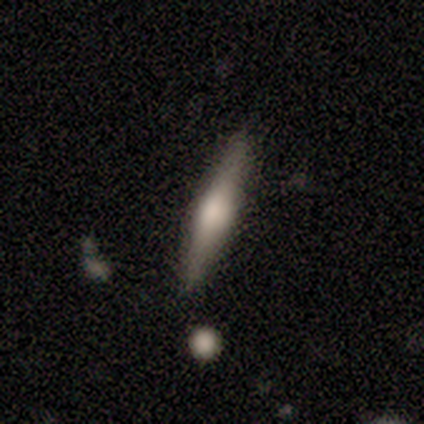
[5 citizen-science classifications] Smooth or featured? 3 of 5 (60%) said smooth. How rounded? 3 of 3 (100%) said cigar-shaped. Merging? 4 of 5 (80%) said none.